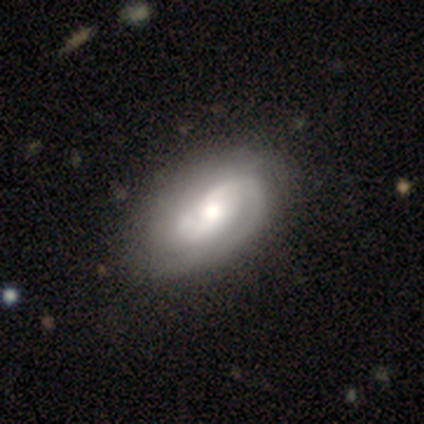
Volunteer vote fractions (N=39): Volunteers were most divided on "spiral winding": medium: 45%, tight: 42%, loose: 12%. Remaining: edge-on disk — no (97%); spiral arms — yes (94%); smooth or featured — featured or disk (92%); spiral arm count — 2 (76%); bar — no (60%); bulge size — moderate (57%); merging — none (33%).